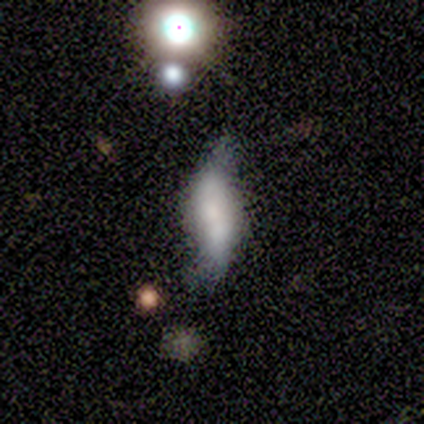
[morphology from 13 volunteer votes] smooth-or-featured: featured or disk: 69% | smooth: 31% | star or artifact: 0%
  disk-edge-on: no: 100% | yes: 0%
    bar: no: 78% | strong: 22% | weak: 0%
    has-spiral-arms: yes: 67% | no: 33%
      spiral-winding: loose: 100% | tight: 0% | medium: 0%
      spiral-arm-count: 2: 50% (tied) | can't tell: 50% (tied) | 1: 0% | 3: 0% | 4: 0% | more than 4: 0%
    bulge-size: moderate: 33% | large: 22% | small: 22% | none: 22% | dominant: 0%
  merging: none: 38% | minor disturbance: 23% | merger: 23% | major disturbance: 15%